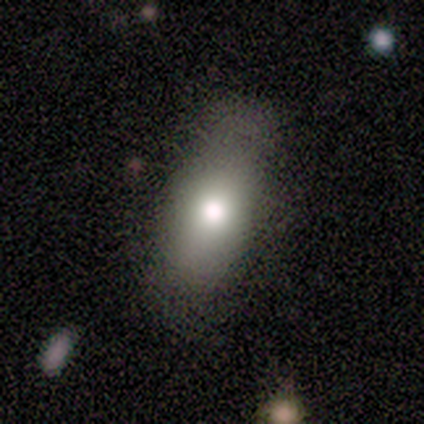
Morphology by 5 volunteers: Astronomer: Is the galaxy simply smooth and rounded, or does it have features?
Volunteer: smooth — 80%.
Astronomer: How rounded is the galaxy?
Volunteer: in between — 100%.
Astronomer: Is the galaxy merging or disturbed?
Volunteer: none — 80%.